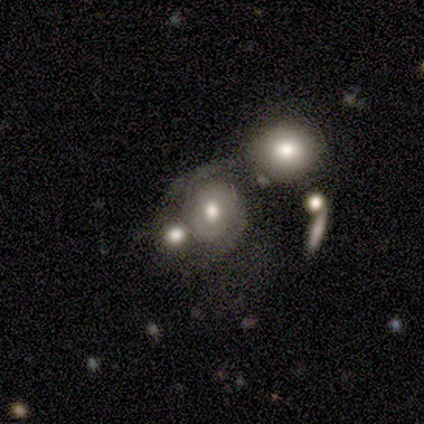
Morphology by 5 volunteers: smooth_or_featured: featured or disk (p=0.80) [alt: smooth p=0.20]
disk_edge_on: no (p=1.00)
bar: no (p=0.75) [alt: weak p=0.25]
has_spiral_arms: yes (p=1.00)
spiral_winding: tight (p=0.50) [tied with: medium p=0.50]
spiral_arm_count: can't tell (p=0.75) [alt: 2 p=0.25]
bulge_size: moderate (p=0.75) [alt: large p=0.25]
merging: merger (p=0.60) [alt: none p=0.40]